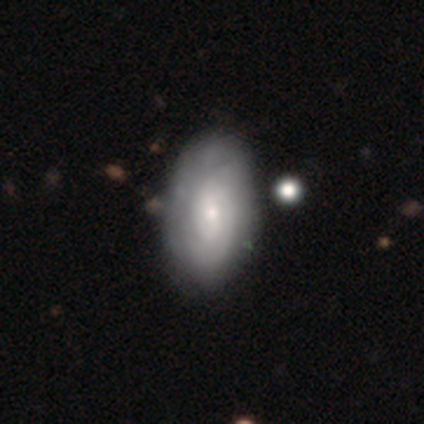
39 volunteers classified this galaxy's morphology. Smooth or featured: smooth — 49% (featured or disk — 46%)
How rounded: in between — 89% (round — 11%)
Merging: none — 54% (minor disturbance — 5%)